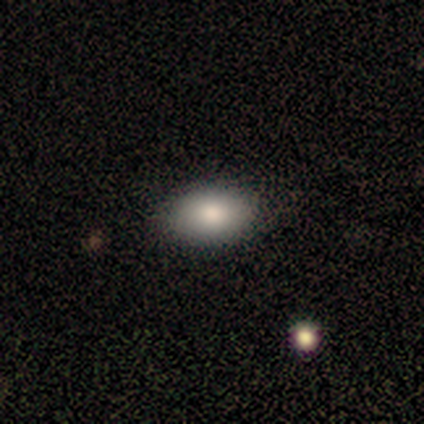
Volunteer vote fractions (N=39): Morphology: type=smooth (87%); roundness=in between (82%); merging=none (86%).